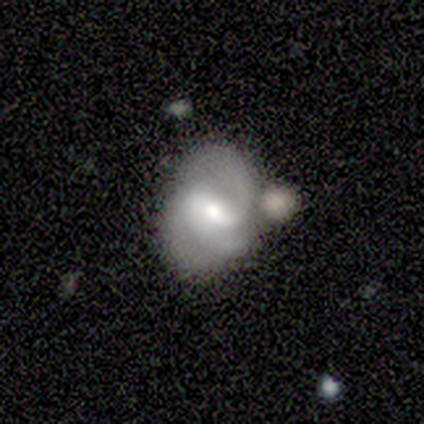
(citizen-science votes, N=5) Overall: featured or disk (100%). Edge-on disk: no (100%). Bar: weak (80%). Spiral arms: yes (100%). Spiral arm count: can't tell (40%; 1 20%). Spiral winding: tight (40%, tied with loose). Bulge size: moderate (40%, tied with small). Merging: none (60%; minor disturbance 20%).